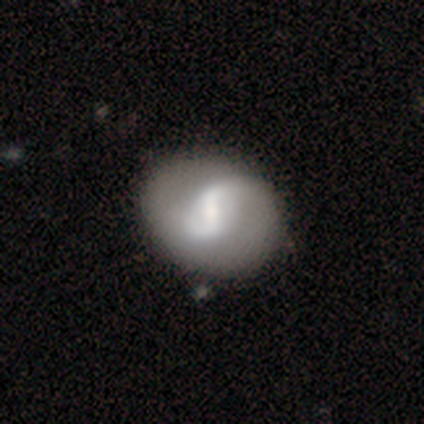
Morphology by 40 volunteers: Smooth or featured? 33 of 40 (82%) said featured or disk. Edge-on disk? 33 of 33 (100%) said no. Bar? 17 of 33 (52%) said weak. Spiral arms? 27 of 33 (82%) said yes. Spiral winding? 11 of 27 (41%) said loose. Spiral arm count? 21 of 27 (78%) said 2. Bulge size? 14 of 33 (42%) said small. Merging? 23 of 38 (61%) said none.